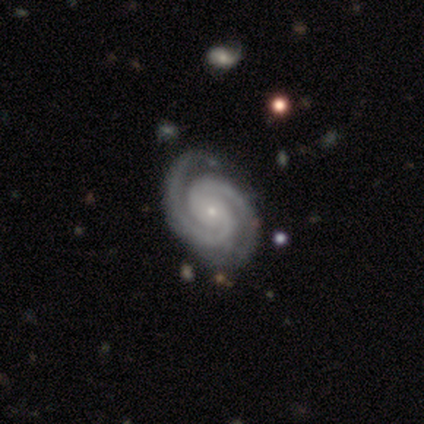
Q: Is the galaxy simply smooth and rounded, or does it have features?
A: featured or disk — 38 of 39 (97%).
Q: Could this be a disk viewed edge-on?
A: no — 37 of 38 (97%).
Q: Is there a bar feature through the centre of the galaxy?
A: no — 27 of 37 (73%).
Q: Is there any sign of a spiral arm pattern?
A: yes — 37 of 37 (100%).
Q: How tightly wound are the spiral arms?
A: tight — 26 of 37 (70%).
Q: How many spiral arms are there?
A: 2 — 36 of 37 (97%).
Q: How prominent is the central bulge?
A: small — 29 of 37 (78%).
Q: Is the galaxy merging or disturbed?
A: none — 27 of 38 (71%).